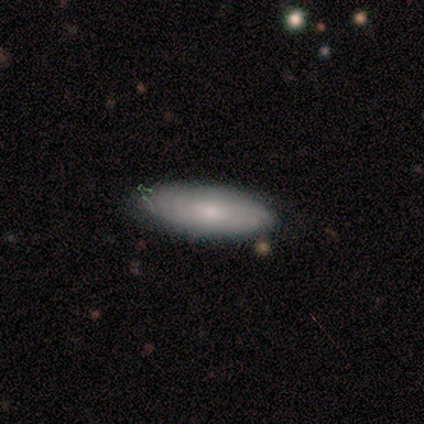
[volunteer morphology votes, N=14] This appears to be a smooth galaxy with no disk features (64%) that is in between round and cigar-shaped (89%). Merging: none (93%).